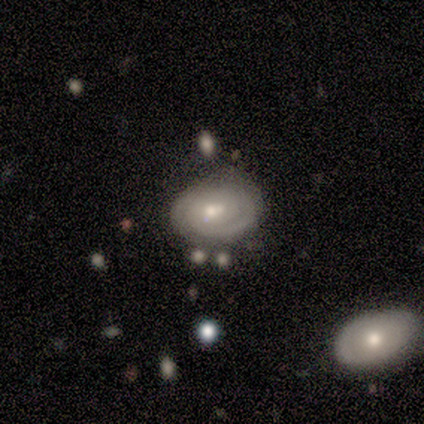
Morphology: type=featured or disk (75%); edge-on=no (100%); bar=no (100%); spiral arms=yes (67%); winding=tight (100%); arm count=can't tell (100%); bulge=moderate (67%); merging=none (100%).